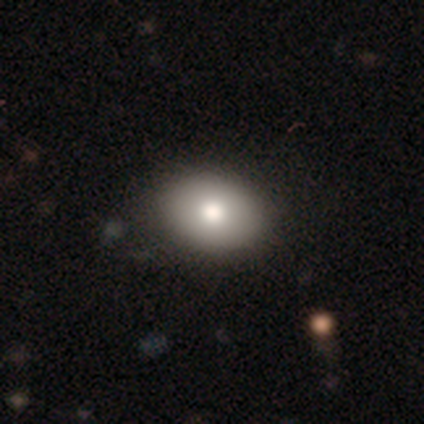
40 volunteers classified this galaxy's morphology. smooth-or-featured: smooth: 75% | featured or disk: 20% | star or artifact: 5%
  how-rounded: in between: 73% | round: 23% | cigar-shaped: 3%
  merging: none: 68% | minor disturbance: 0% | major disturbance: 0% | merger: 0%